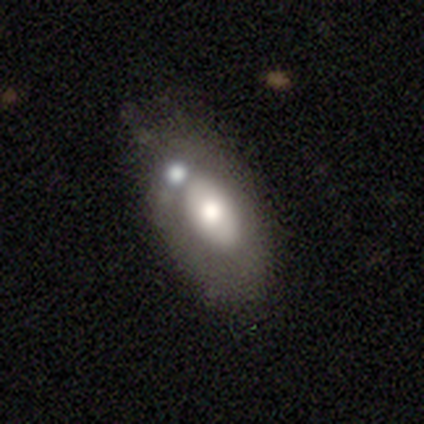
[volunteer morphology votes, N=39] Overall: featured or disk (49%; smooth 46%). Edge-on disk: no (89%). Bar: no (82%). Spiral arms: no (82%). Bulge size: moderate (53%; large 41%). Merging: minor disturbance (41%; none 35%).